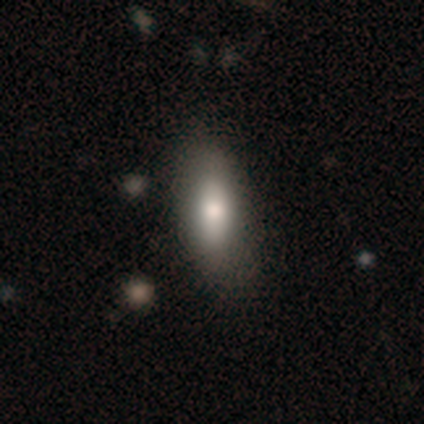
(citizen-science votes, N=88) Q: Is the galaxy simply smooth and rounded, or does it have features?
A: smooth — 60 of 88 (68%).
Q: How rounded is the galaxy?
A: in between — 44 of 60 (73%).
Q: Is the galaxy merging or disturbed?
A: none — 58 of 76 (76%).